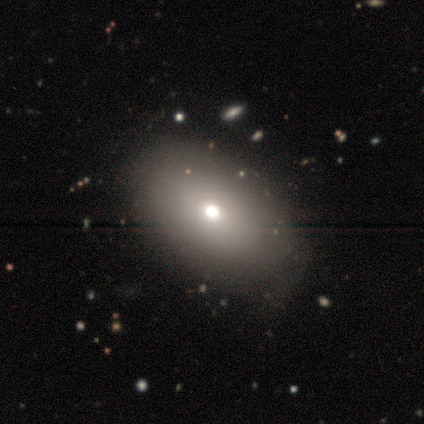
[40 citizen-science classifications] Smooth or featured: smooth — 82% (featured or disk — 15%)
How rounded: in between — 70% (round — 27%)
Merging: none — 90% (minor disturbance — 10%)